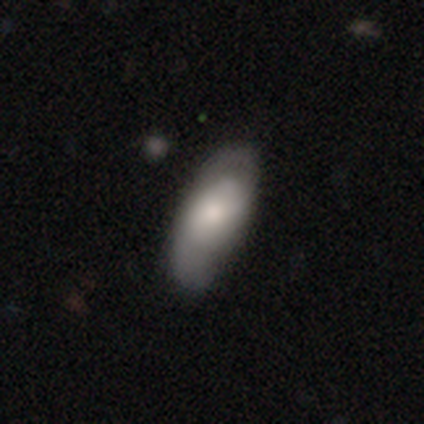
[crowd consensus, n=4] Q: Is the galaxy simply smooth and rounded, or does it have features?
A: smooth — 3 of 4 (75%).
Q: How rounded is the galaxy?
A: in between — 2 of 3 (67%).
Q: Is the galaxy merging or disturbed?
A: none — 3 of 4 (75%).